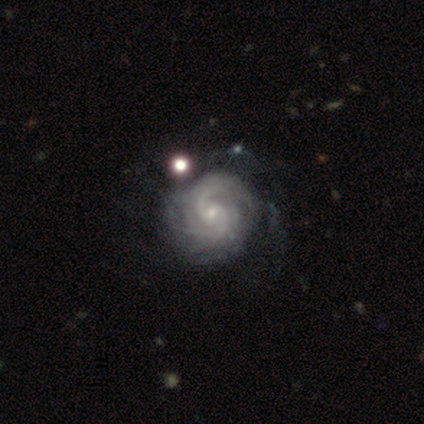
Smooth or featured: featured or disk — 80% (star or artifact — 20%)
Edge-on disk: no — 100%
Bar: no — 75% (weak — 25%)
Spiral arms: yes — 100%
Spiral winding: tight — 50% (tied with medium — 50%)
Spiral arm count: can't tell — 50% (3 — 25%)
Bulge size: small — 100%
Merging: none — 50% (minor disturbance — 25%)